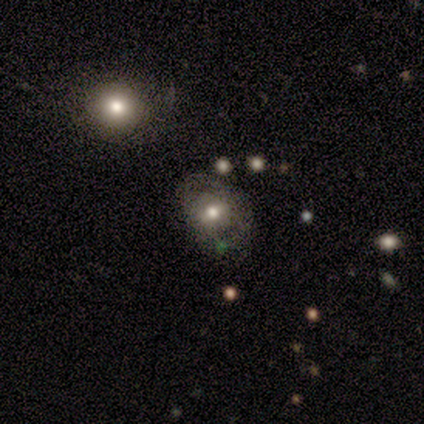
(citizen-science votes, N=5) Smooth or featured: smooth — 60% (featured or disk — 40%)
How rounded: round — 67% (in between — 33%)
Merging: minor disturbance — 60% (major disturbance — 20%)